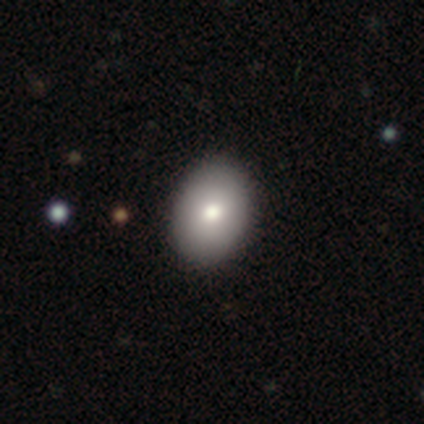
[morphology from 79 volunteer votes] This appears to be a smooth galaxy with no disk features (85%) that is in between round and cigar-shaped (64%). Merging: none (49%).